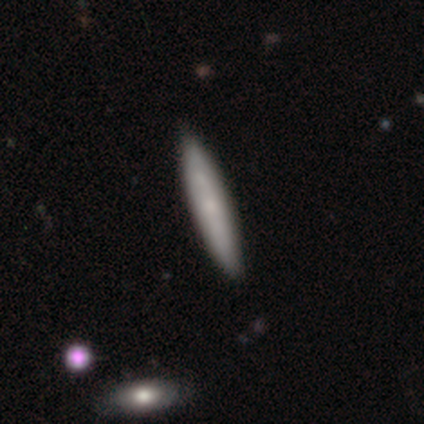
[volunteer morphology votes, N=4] smooth_or_featured: smooth (p=0.50) [tied with: featured or disk p=0.50]
how_rounded: cigar-shaped (p=1.00)
merging: none (p=0.75) [alt: minor disturbance p=0.25]